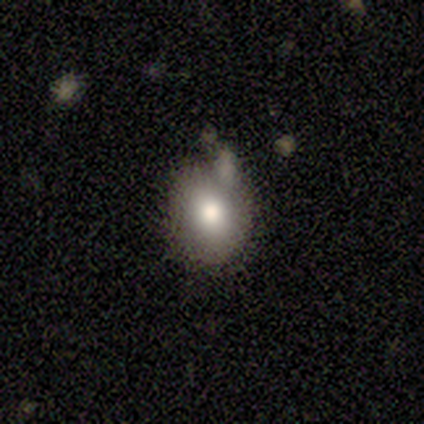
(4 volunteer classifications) Overall: smooth (75%). How rounded: in between (67%; round 33%). Merging: none (100%).